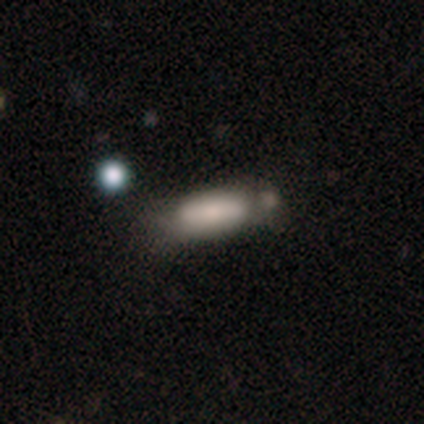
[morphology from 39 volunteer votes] This appears to be a smooth galaxy with no disk features (79%) that is cigar-shaped (52%). Merging: none (50%).